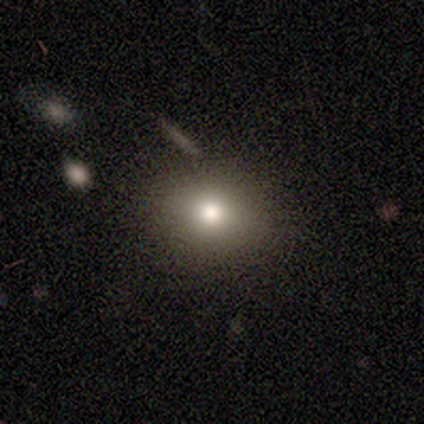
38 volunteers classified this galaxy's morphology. smooth-or-featured: smooth: 71% | star or artifact: 21% | featured or disk: 8%
  how-rounded: round: 59% | in between: 41% | cigar-shaped: 0%
  merging: none: 83% | minor disturbance: 13% | merger: 3% | major disturbance: 0%